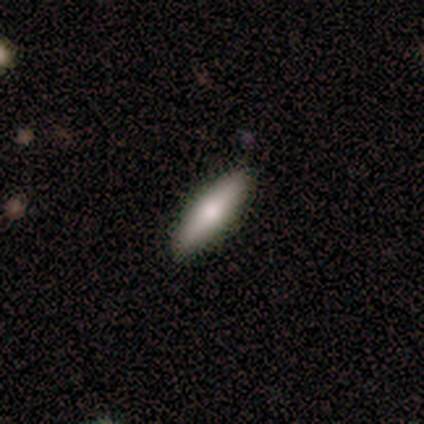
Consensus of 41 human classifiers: Smooth or featured?
  - smooth: 80% *
  - featured or disk: 15%
  - star or artifact: 5%
How rounded?
  - cigar-shaped: 85% *
  - in between: 15%
  - round: 0%
Merging?
  - none: 85% *
  - minor disturbance: 15%
  - major disturbance: 0%
  - merger: 0%